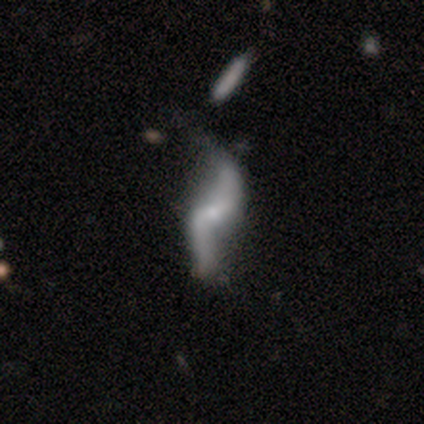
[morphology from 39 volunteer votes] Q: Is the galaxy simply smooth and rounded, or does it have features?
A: featured or disk — 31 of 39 (79%).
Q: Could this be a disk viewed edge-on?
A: no — 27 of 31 (87%).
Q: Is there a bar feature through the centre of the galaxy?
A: weak — 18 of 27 (67%).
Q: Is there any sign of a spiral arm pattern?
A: yes — 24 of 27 (89%).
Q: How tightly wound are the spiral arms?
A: loose — 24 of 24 (100%).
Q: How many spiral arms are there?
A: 2 — 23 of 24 (96%).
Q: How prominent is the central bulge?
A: small — 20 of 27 (74%).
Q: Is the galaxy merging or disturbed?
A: none — 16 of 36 (44%).